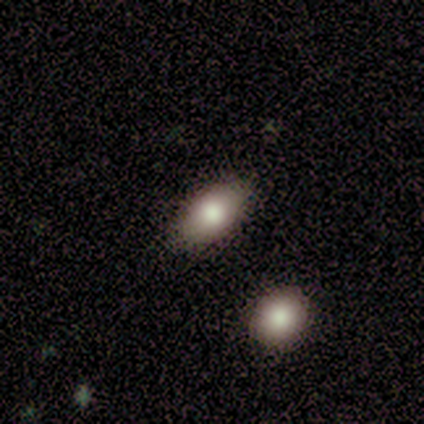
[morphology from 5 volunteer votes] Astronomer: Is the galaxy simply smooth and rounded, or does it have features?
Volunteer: smooth — 100%.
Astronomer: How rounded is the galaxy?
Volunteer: in between — 100%.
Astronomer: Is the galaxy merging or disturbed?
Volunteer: none — 100%.